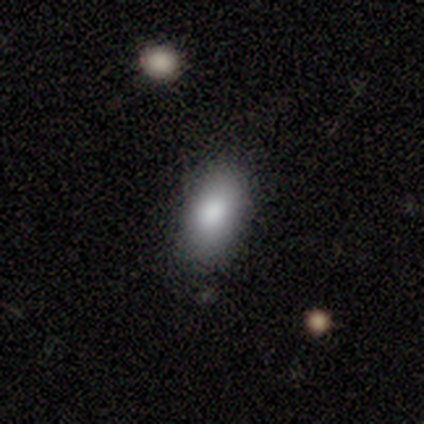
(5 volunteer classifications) smooth 80%, featured or disk 20%, star or artifact 0%. Down the decision tree: how rounded — in between (100%); merging — none (80%).